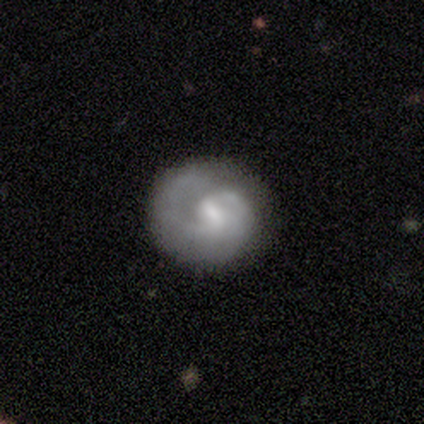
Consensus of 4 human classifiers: smooth-or-featured: smooth: 100% | featured or disk: 0% | star or artifact: 0%
  how-rounded: round: 100% | in between: 0% | cigar-shaped: 0%
  merging: none: 50% | minor disturbance: 25% | major disturbance: 25% | merger: 0%